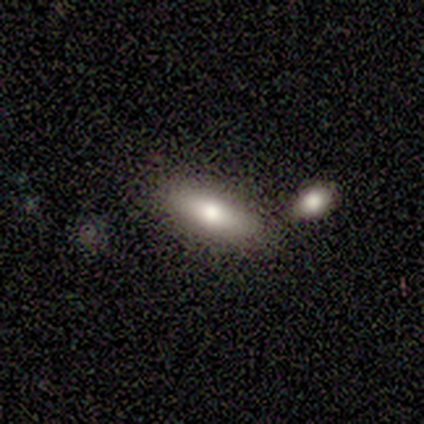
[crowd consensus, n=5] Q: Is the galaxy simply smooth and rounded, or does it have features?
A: smooth — 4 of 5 (80%).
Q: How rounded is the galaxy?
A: in between — 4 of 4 (100%).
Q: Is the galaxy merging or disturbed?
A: none — 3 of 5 (60%).